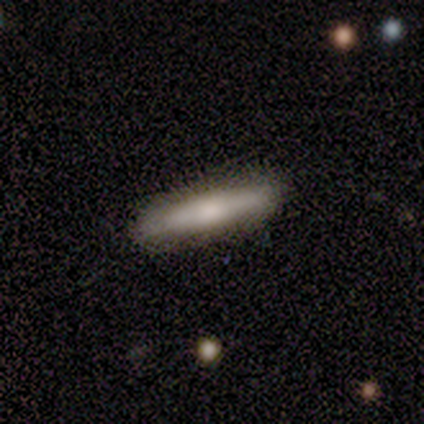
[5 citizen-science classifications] Smooth or featured? smooth (60%)
How rounded? cigar-shaped (67%)
Merging? none (100%)